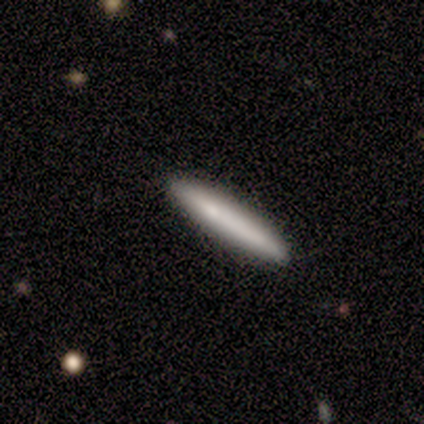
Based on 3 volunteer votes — smooth 67%, featured or disk 33%, star or artifact 0%. Down the decision tree: how rounded — cigar-shaped (100%); merging — none (100%).